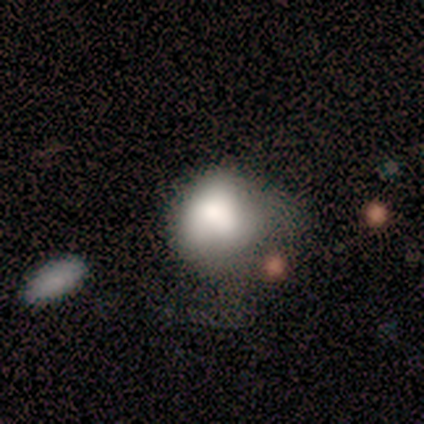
Morphology: type=smooth (80%); roundness=in between (75%); merging=major disturbance (40%).